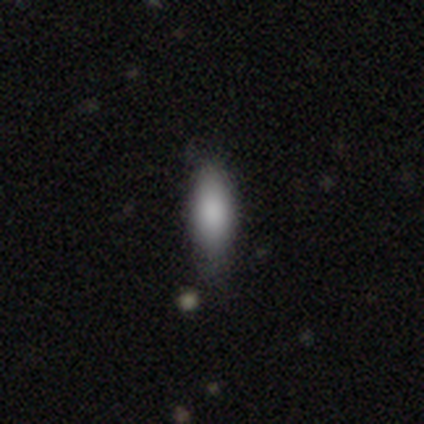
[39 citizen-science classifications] Smooth or featured: smooth — 95% (featured or disk — 5%)
How rounded: in between — 68% (cigar-shaped — 32%)
Merging: none — 69% (minor disturbance — 23%)